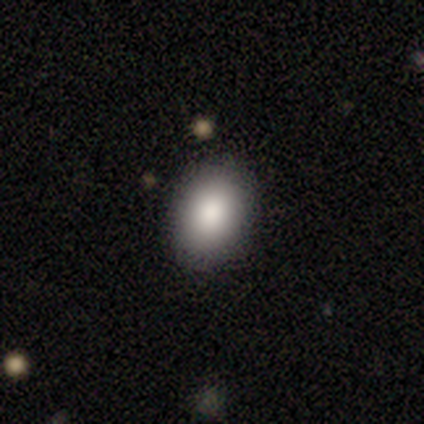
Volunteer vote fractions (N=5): Smooth or featured: smooth — 80% (star or artifact — 20%)
How rounded: round — 50% (tied with in between — 50%)
Merging: none — 100%